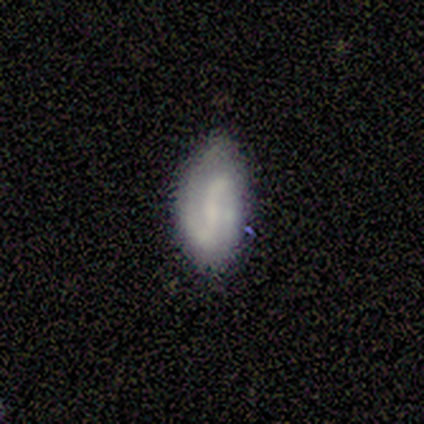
This appears to be a featured or disk galaxy (80%) with a strong bar (33%, tied with weak and no), 2 (100%) loose (67%) spiral arms (100%) and no central bulge (67%). Merging: none (60%).